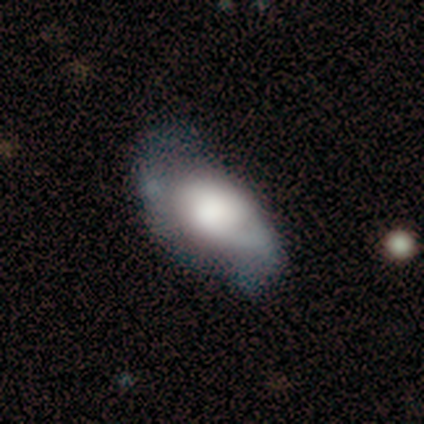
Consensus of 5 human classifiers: Smooth or featured?
  - featured or disk: 60% *
  - smooth: 40%
  - star or artifact: 0%
Edge-on disk?
  - no: 100% *
  - yes: 0%
Bar?
  - no: 100% *
  - strong: 0%
  - weak: 0%
Spiral arms?
  - yes: 67% *
  - no: 33%
Spiral winding?
  - loose: 100% *
  - tight: 0%
  - medium: 0%
Spiral arm count?
  - 2: 100% *
  - 1: 0%
  - 3: 0%
  - 4: 0%
  - more than 4: 0%
  - can't tell: 0%
Bulge size?
  - large: 33% * (tied)
  - moderate: 33% * (tied)
  - none: 33% * (tied)
  - dominant: 0%
  - small: 0%
Merging?
  - none: 40% * (tied)
  - minor disturbance: 40% * (tied)
  - major disturbance: 20%
  - merger: 0%